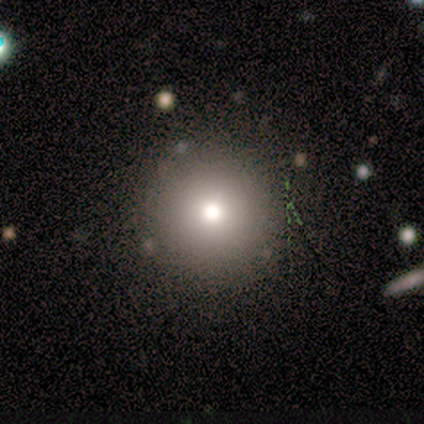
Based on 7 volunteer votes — Smooth or featured? smooth (71%)
How rounded? round (80%)
Merging? none (67%)